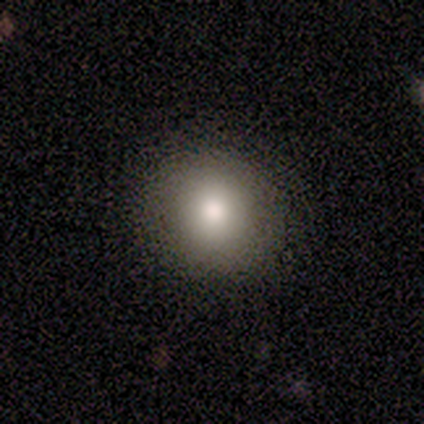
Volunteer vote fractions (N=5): smooth-or-featured: smooth: 60% | featured or disk: 40% | star or artifact: 0%
  how-rounded: round: 100% | in between: 0% | cigar-shaped: 0%
  merging: none: 100% | minor disturbance: 0% | major disturbance: 0% | merger: 0%